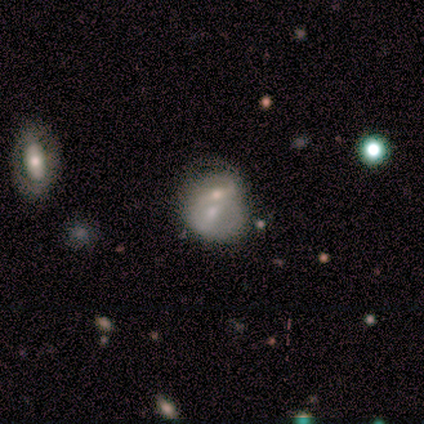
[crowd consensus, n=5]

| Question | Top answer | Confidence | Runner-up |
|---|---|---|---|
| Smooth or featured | featured or disk | 60% | smooth (40%) |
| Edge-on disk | no | 100% | — |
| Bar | no | 67% | strong (33%) |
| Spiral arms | no | 67% | yes (33%) |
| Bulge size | moderate | 100% | — |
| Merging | merger | 60% | none (20%) |